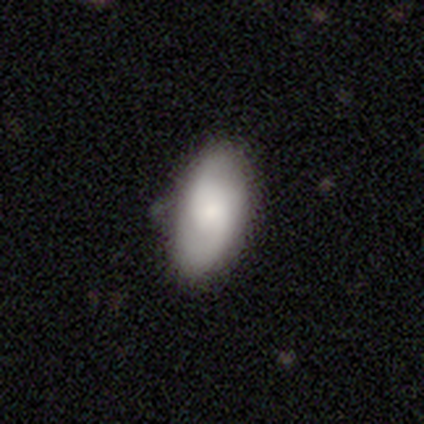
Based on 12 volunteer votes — smooth 75%, featured or disk 17%, star or artifact 8%. Down the decision tree: how rounded — in between (100%); merging — none (82%).